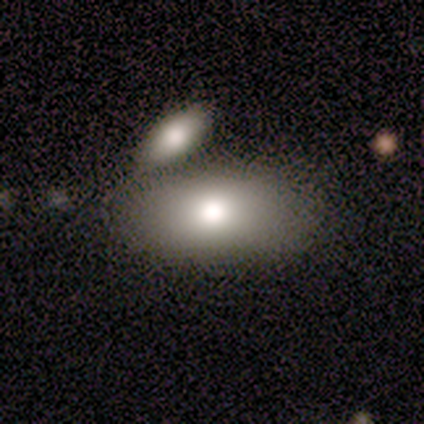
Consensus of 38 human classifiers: Q: Smooth or featured?
A: smooth (63%); runner-up: featured or disk (29%)
Q: How rounded?
A: in between (83%); runner-up: round (8%)
Q: Merging?
A: merger (46%); runner-up: none (37%)